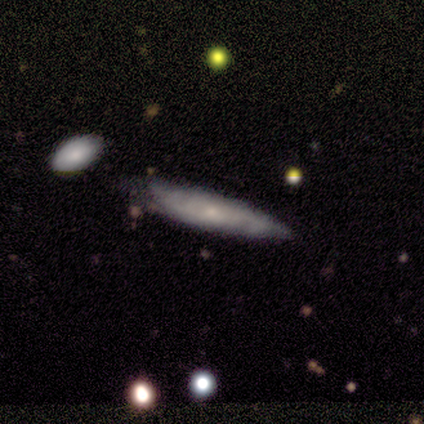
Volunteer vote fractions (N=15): Overall: featured or disk (47%; smooth 40%). Edge-on disk: yes (57%; no 43%). Edge-on bulge: none (75%). Merging: none (77%).